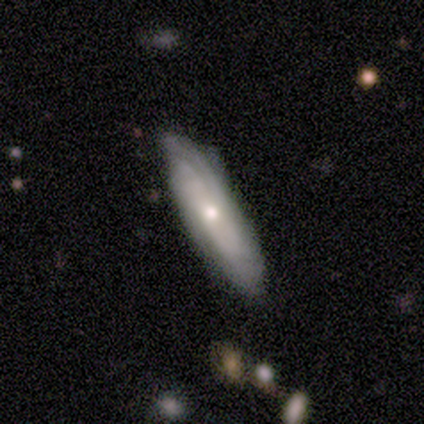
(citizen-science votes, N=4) smooth_or_featured: featured or disk (p=1.00)
disk_edge_on: no (p=0.75) [alt: yes p=0.25]
bar: no (p=0.67) [alt: weak p=0.33]
has_spiral_arms: yes (p=0.67) [alt: no p=0.33]
spiral_winding: tight (p=0.50) [tied with: loose p=0.50]
spiral_arm_count: 2 (p=0.50) [tied with: can't tell p=0.50]
bulge_size: moderate (p=0.67) [alt: small p=0.33]
merging: none (p=0.75) [alt: minor disturbance p=0.25]